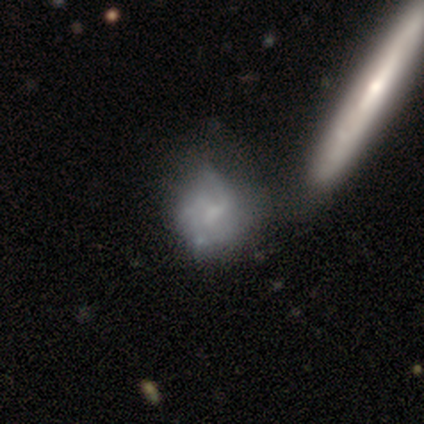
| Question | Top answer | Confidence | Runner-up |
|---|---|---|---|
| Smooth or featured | featured or disk | 59% | smooth (32%) |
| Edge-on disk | no | 88% | yes (12%) |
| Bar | no | 52% | weak (43%) |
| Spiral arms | yes | 70% | no (30%) |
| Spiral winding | loose | 44% | medium (38%) |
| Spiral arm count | can't tell | 50% | 1 (19%) |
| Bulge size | none | 57% | small (26%) |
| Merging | merger | 38% | none (22%) |